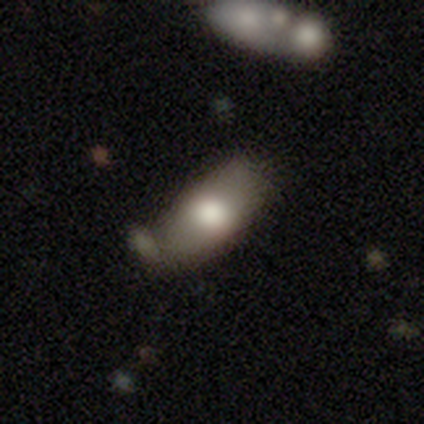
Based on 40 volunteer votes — Smooth or featured? 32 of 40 (80%) said smooth. How rounded? 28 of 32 (88%) said in between. Merging? 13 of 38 (34%) said none.